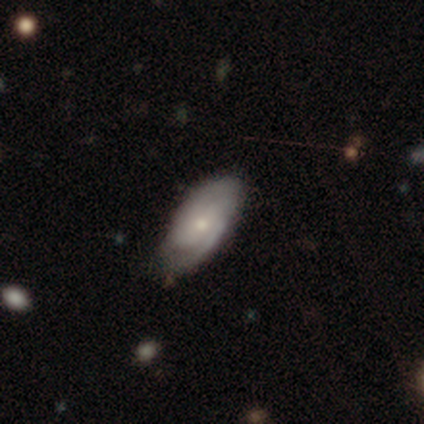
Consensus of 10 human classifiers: featured or disk 80%, smooth 20%, star or artifact 0%. Down the decision tree: edge-on disk — no (100%); bar — no (50%); spiral arms — yes (88%); spiral arm count — 2 (43%); spiral winding — tight (57%); bulge size — small (88%); merging — none (50%, tied with minor disturbance).